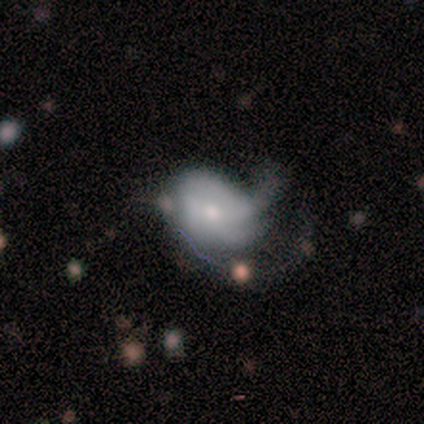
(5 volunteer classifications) Volunteers were most divided on "spiral arm count" (3-way tie): 1: 33%, 2: 33%, 3: 33%, 4: 0%, more than 4: 0%, can't tell: 0%. More confident: smooth or featured — featured or disk (100%); edge-on disk — no (100%); bar — no (80%); merging — major disturbance (80%); spiral winding — tight (67%); spiral arms — yes (60%); bulge size — small (60%).